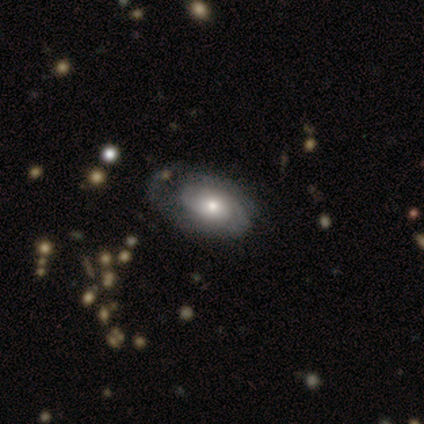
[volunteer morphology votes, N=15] Smooth or featured?
  - featured or disk: 80% *
  - smooth: 20%
  - star or artifact: 0%
Edge-on disk?
  - no: 100% *
  - yes: 0%
Bar?
  - no: 92% *
  - weak: 8%
  - strong: 0%
Spiral arms?
  - yes: 58% *
  - no: 42%
Spiral winding?
  - tight: 71% *
  - medium: 29%
  - loose: 0%
Spiral arm count?
  - 2: 71% *
  - can't tell: 29%
  - 1: 0%
  - 3: 0%
  - 4: 0%
  - more than 4: 0%
Bulge size?
  - moderate: 58% *
  - large: 25%
  - small: 17%
  - dominant: 0%
  - none: 0%
Merging?
  - none: 40% *
  - major disturbance: 33%
  - minor disturbance: 27%
  - merger: 0%